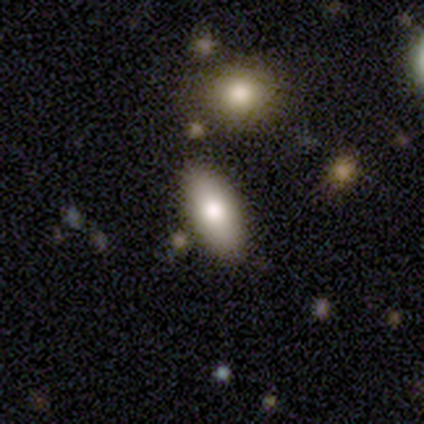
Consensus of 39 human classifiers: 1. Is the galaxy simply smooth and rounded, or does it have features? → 82% smooth, 13% featured or disk, 5% star or artifact.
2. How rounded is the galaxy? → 91% in between, 9% cigar-shaped, 0% round.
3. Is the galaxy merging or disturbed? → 76% none, 14% merger, 8% minor disturbance, 3% major disturbance.